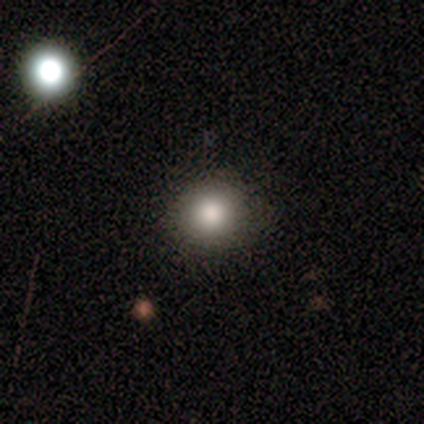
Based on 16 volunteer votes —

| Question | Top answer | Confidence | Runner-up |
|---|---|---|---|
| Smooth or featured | smooth | 88% | star or artifact (12%) |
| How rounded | round | 79% | in between (21%) |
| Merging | none | 86% | minor disturbance (14%) |